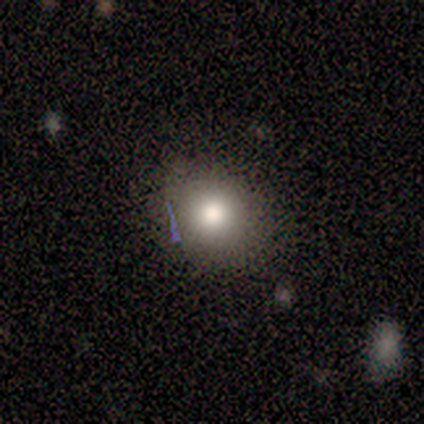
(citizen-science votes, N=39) This is clearly a smooth galaxy (87%). How rounded: likely round (74%). Merging: likely none (78%).